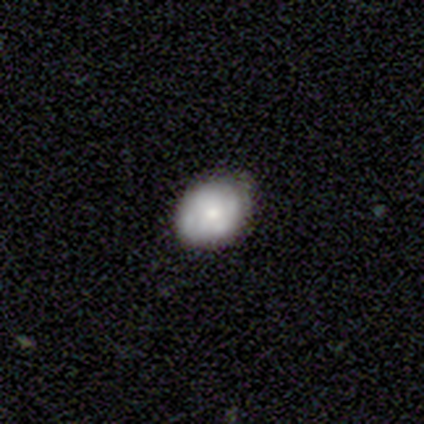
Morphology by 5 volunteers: smooth_or_featured: smooth (p=1.00)
how_rounded: in between (p=0.80) [alt: round p=0.20]
merging: none (p=0.60) [alt: minor disturbance p=0.40]